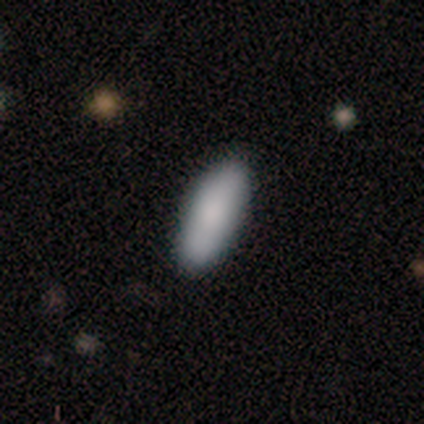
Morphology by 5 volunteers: A smooth galaxy with no disk features (100%) that is in between round and cigar-shaped (60%).

Vote fractions:
- Smooth or featured? smooth: 100% / featured or disk: 0% / star or artifact: 0%
- How rounded? in between: 60% / cigar-shaped: 40% / round: 0%
- Merging? none: 100% / minor disturbance: 0% / major disturbance: 0% / merger: 0%